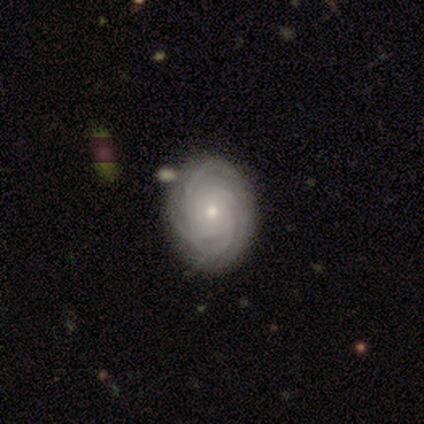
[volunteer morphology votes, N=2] Volunteers were most divided on "spiral arm count" (2-way tie): 3: 50%, more than 4: 50%, 1: 0%, 2: 0%, 4: 0%, can't tell: 0%; "bulge size" (2-way tie): moderate: 50%, small: 50%, dominant: 0%, large: 0%, none: 0%. More confident: smooth or featured — featured or disk (100%); edge-on disk — no (100%); bar — no (100%); spiral arms — yes (100%); spiral winding — tight (100%); merging — none (100%).